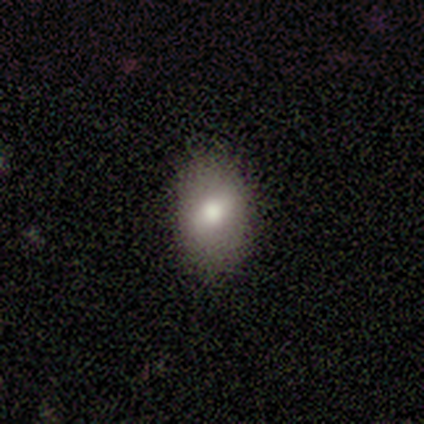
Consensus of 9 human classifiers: This is clearly a smooth galaxy (89%). How rounded: likely in between (62%). Merging: clearly none (100%).